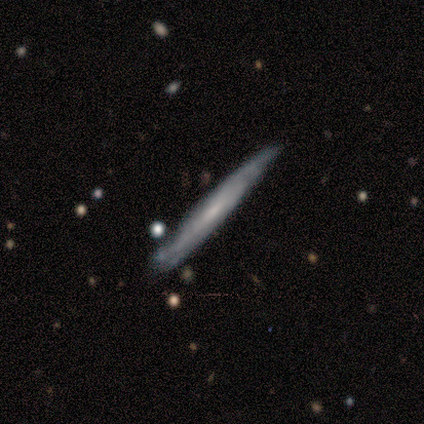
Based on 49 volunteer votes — Overall: featured or disk (67%; smooth 33%). Edge-on disk: yes (76%). Edge-on bulge: none (76%). Merging: none (71%).